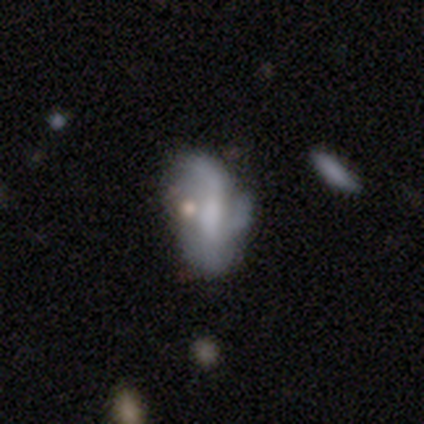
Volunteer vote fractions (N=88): Smooth or featured: featured or disk — 65% (smooth — 28%)
Edge-on disk: no — 96% (yes — 4%)
Bar: weak — 47% (no — 36%)
Spiral arms: yes — 67% (no — 33%)
Spiral winding: loose — 68% (medium — 24%)
Spiral arm count: 2 — 32% (3 — 27%)
Bulge size: none — 35% (moderate — 31%)
Merging: minor disturbance — 34% (major disturbance — 29%)